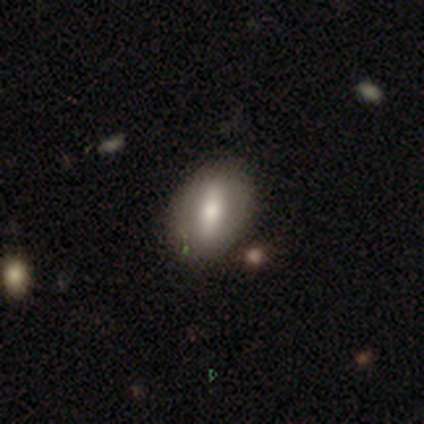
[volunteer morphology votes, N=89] smooth 56%, featured or disk 33%, star or artifact 11%. Down the decision tree: how rounded — in between (70%); merging — none (82%).